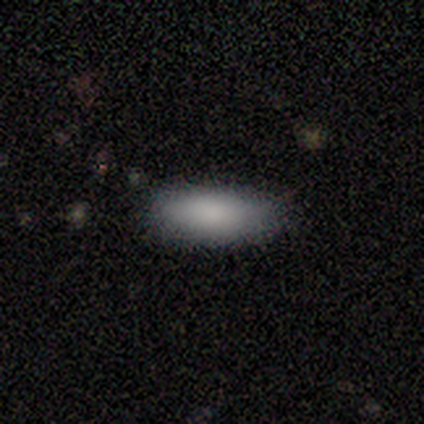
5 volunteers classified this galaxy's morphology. Overall: smooth (100%). How rounded: in between (100%). Merging: none (100%).